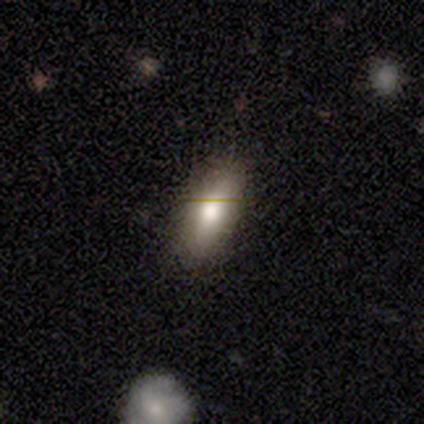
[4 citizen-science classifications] smooth 75%, featured or disk 25%, star or artifact 0%. Down the decision tree: how rounded — in between (67%); merging — none (50%, tied with minor disturbance).